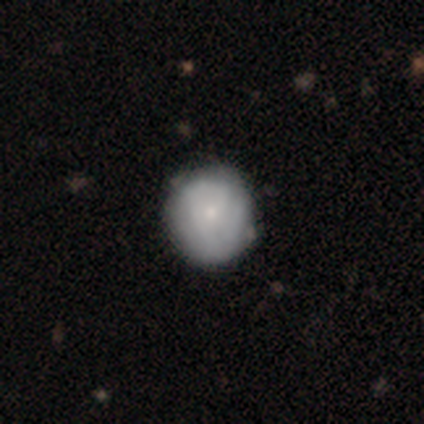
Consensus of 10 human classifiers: Q: Smooth or featured?
A: featured or disk (60%); runner-up: smooth (40%)
Q: Edge-on disk?
A: no (100%)
Q: Bar?
A: no (83%); runner-up: weak (17%)
Q: Spiral arms?
A: yes (67%); runner-up: no (33%)
Q: Spiral winding?
A: tight (50%); runner-up: medium (25%)
Q: Spiral arm count?
A: can't tell (50%); runner-up: 2 (25%)
Q: Bulge size?
A: small (83%); runner-up: moderate (17%)
Q: Merging?
A: none (90%); runner-up: minor disturbance (10%)